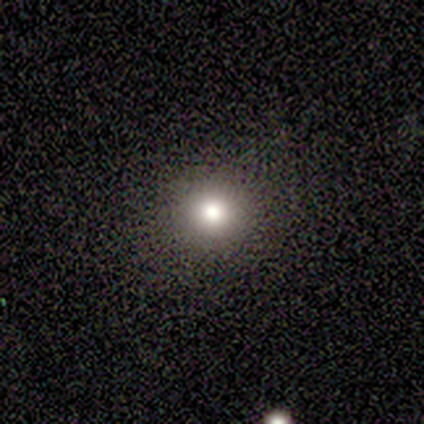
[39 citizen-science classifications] smooth 72%, star or artifact 21%, featured or disk 8%. Down the decision tree: how rounded — round (96%); merging — none (94%).